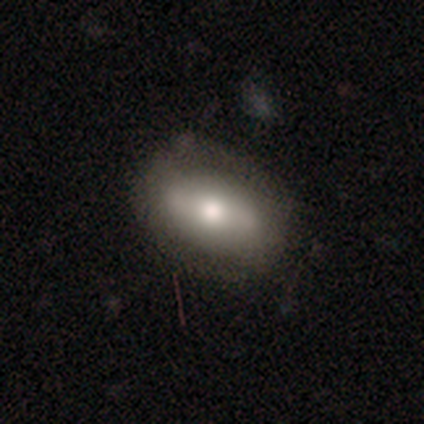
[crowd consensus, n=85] Smooth or featured? 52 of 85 (61%) said smooth. How rounded? 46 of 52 (88%) said in between. Merging? 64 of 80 (80%) said none.